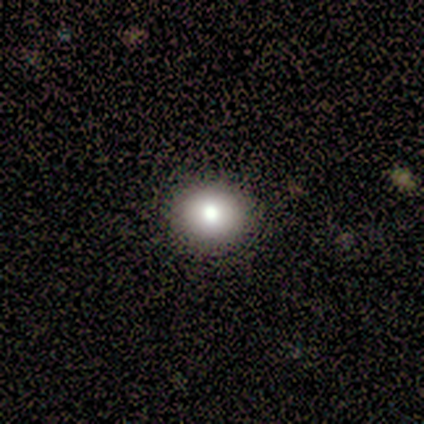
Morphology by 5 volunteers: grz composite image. It shows a smooth galaxy with no disk features (80%) that is round (75%). Merging: none (100%).